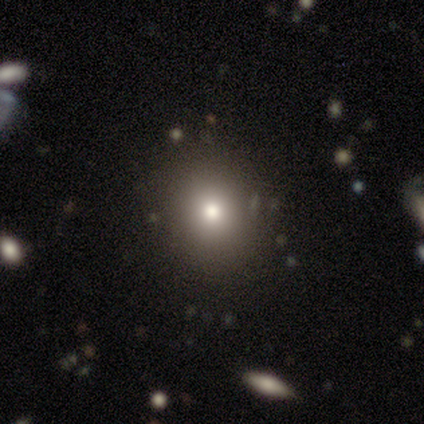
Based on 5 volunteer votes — Volunteers were most divided on "how rounded": round: 60%, in between: 40%, cigar-shaped: 0%. More confident: smooth or featured — smooth (100%); merging — none (80%).